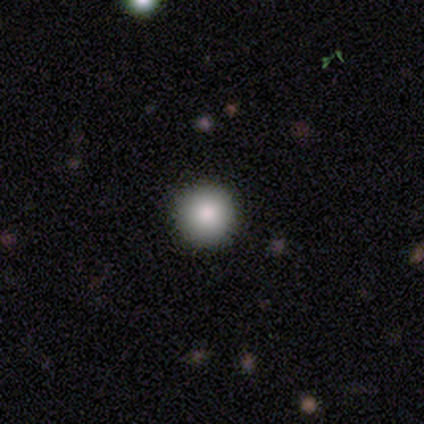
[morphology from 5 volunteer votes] Smooth or featured?
  - smooth: 80% *
  - featured or disk: 20%
  - star or artifact: 0%
How rounded?
  - round: 100% *
  - in between: 0%
  - cigar-shaped: 0%
Merging?
  - none: 100% *
  - minor disturbance: 0%
  - major disturbance: 0%
  - merger: 0%